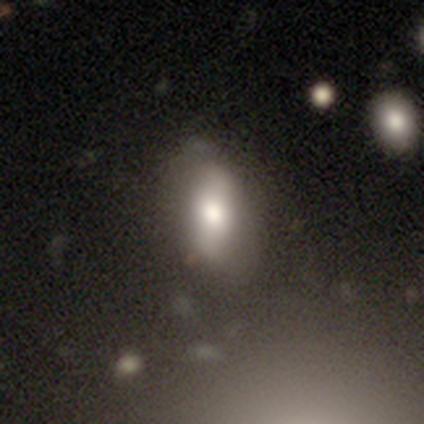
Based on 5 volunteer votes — Smooth or featured: featured or disk — 60% (smooth — 40%)
Edge-on disk: no — 100%
Bar: strong — 100%
Spiral arms: no — 67% (yes — 33%)
Bulge size: moderate — 67% (large — 33%)
Merging: none — 60% (minor disturbance — 20%)